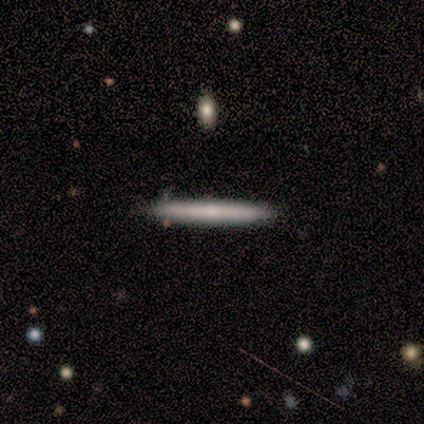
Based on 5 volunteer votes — Smooth or featured?
  - featured or disk: 60% *
  - smooth: 40%
  - star or artifact: 0%
Edge-on disk?
  - yes: 100% *
  - no: 0%
Edge-on bulge?
  - rounded: 100% *
  - boxy: 0%
  - none: 0%
Merging?
  - none: 80% *
  - minor disturbance: 20%
  - major disturbance: 0%
  - merger: 0%